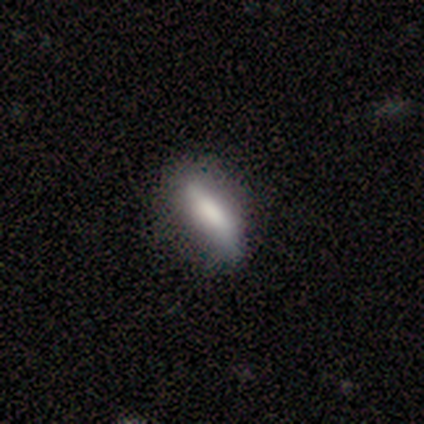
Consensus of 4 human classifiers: Overall: smooth (50%, tied with featured or disk). How rounded: in between (50%, tied with cigar-shaped). Merging: none (75%).